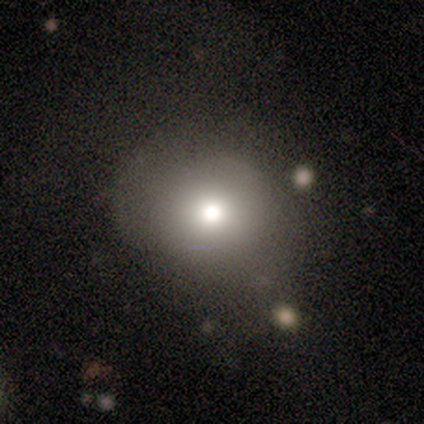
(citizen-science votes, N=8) This is clearly a smooth galaxy (88%). How rounded: clearly round (86%). Merging: likely none (75%).